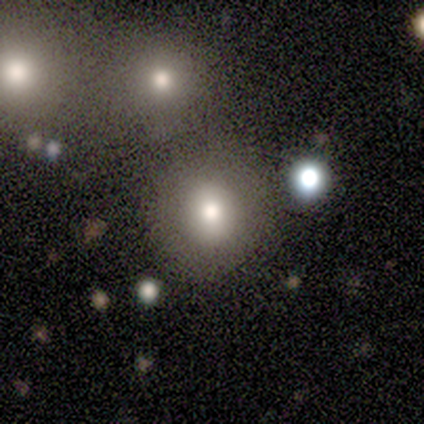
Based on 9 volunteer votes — A smooth galaxy with no disk features (56%) that is round (100%).

Vote fractions:
- Smooth or featured? smooth: 56% / featured or disk: 33% / star or artifact: 11%
- How rounded? round: 100% / in between: 0% / cigar-shaped: 0%
- Merging? none: 88% / merger: 12% / minor disturbance: 0% / major disturbance: 0%